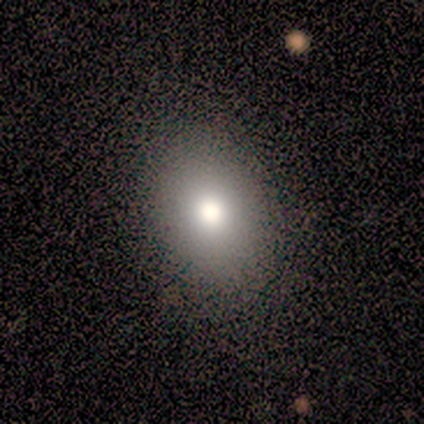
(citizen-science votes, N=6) Overall: smooth (67%). How rounded: in between (75%). Merging: none (100%).